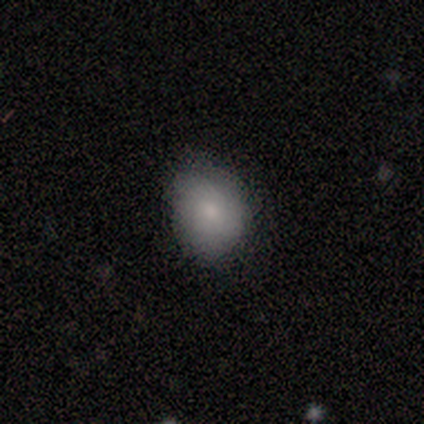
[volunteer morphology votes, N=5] smooth-or-featured: smooth: 80% | featured or disk: 20% | star or artifact: 0%
  how-rounded: round: 75% | in between: 25% | cigar-shaped: 0%
  merging: none: 100% | minor disturbance: 0% | major disturbance: 0% | merger: 0%